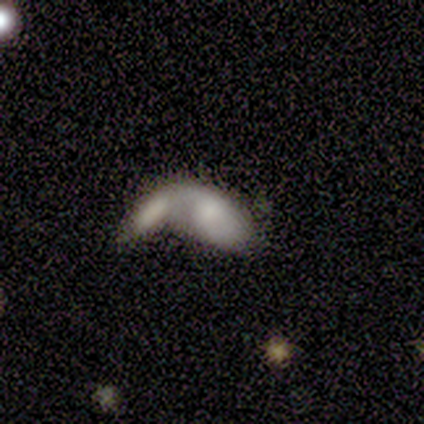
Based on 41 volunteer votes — Overall: smooth (56%; featured or disk 44%). How rounded: in between (96%). Merging: merger (80%).